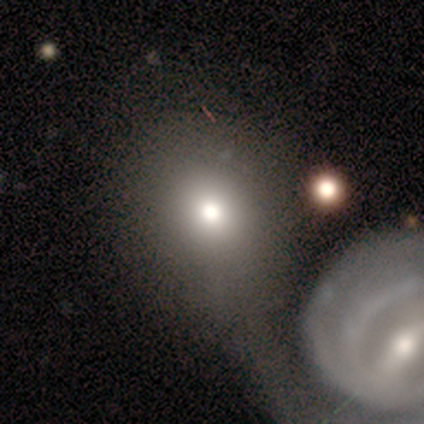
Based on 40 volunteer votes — smooth-or-featured: smooth: 80% | featured or disk: 12% | star or artifact: 8%
  how-rounded: round: 78% | in between: 19% | cigar-shaped: 3%
  merging: merger: 35% | none: 22% | major disturbance: 14% | minor disturbance: 5%